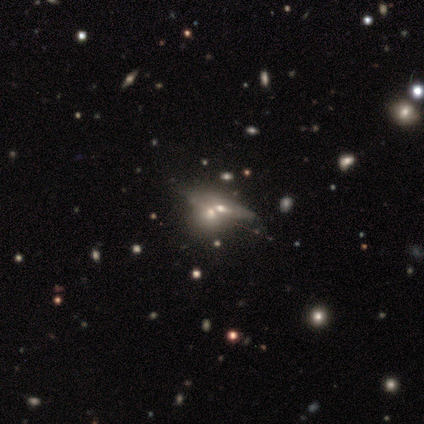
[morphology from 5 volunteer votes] Smooth or featured: featured or disk — 60% (smooth — 20%)
Edge-on disk: no — 100%
Bar: no — 100%
Spiral arms: no — 100%
Bulge size: large — 33% (tied with moderate — 33%; small — 33%)
Merging: none — 50% (major disturbance — 25%)